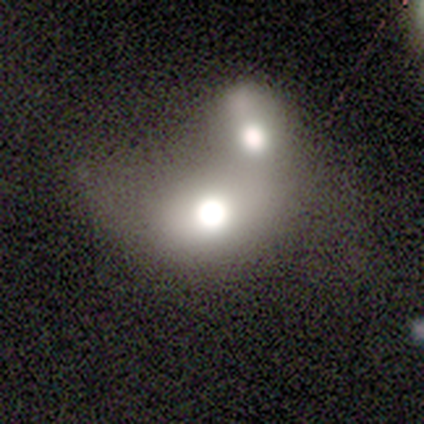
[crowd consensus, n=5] Smooth or featured?
  - smooth: 100% *
  - featured or disk: 0%
  - star or artifact: 0%
How rounded?
  - in between: 80% *
  - round: 20%
  - cigar-shaped: 0%
Merging?
  - merger: 80% *
  - none: 20%
  - minor disturbance: 0%
  - major disturbance: 0%